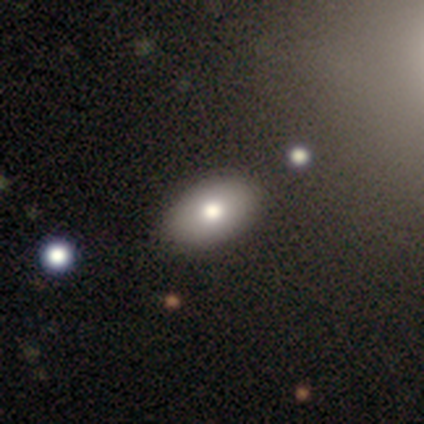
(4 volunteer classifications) This appears to be a smooth galaxy with no disk features (50%, tied with featured or disk) that is in between round and cigar-shaped (100%). Merging: none (75%).